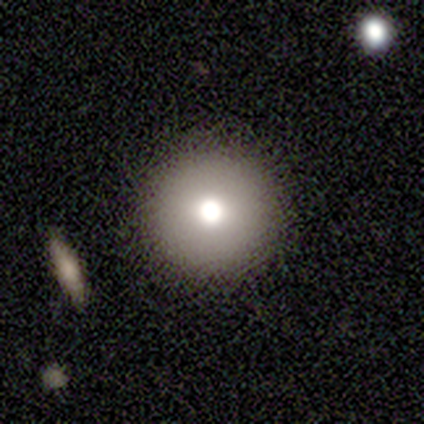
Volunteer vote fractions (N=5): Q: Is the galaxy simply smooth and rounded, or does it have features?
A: smooth — 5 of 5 (100%).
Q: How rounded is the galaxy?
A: round — 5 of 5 (100%).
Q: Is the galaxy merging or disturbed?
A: none — 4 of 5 (80%).